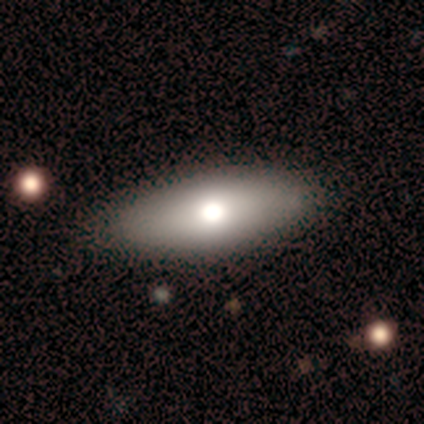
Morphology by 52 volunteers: A smooth galaxy with no disk features (67%) that is in between round and cigar-shaped (86%). Merging: none (81%).